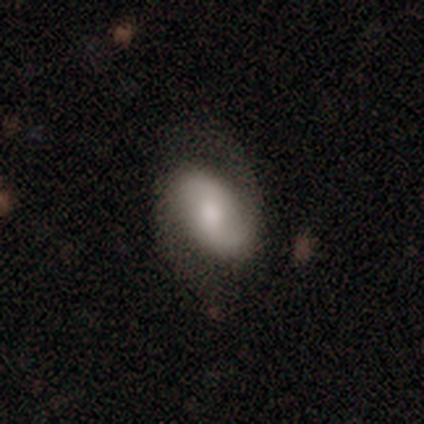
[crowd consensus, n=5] This appears to be a featured or disk galaxy (60%) with a weak bar (67%), 2 (100%) tight (33%, tied with medium and loose) spiral arms (100%) and a moderate central bulge (67%). Merging: none (100%).